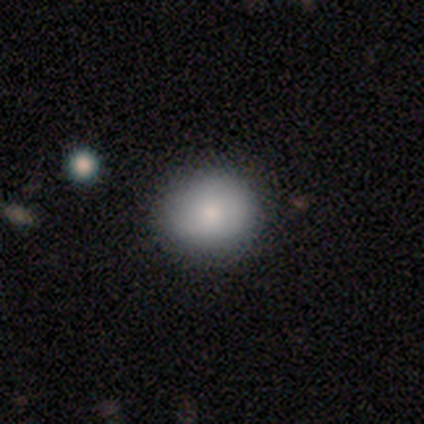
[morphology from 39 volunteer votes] smooth_or_featured: smooth (p=0.69) [alt: featured or disk p=0.15]
how_rounded: round (p=0.81) [alt: in between p=0.19]
merging: none (p=0.91) [alt: minor disturbance p=0.09]